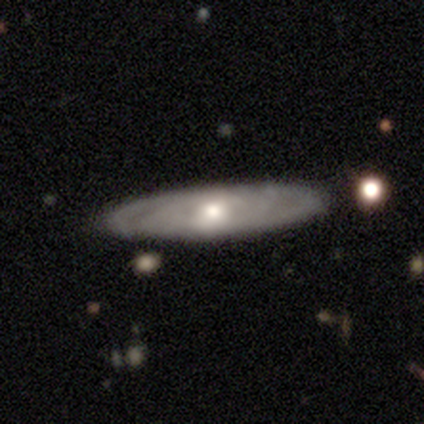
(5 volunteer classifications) Smooth or featured? featured or disk (60%)
Edge-on disk? no (100%)
Bar? no (67%)
Spiral arms? yes (67%)
Spiral winding? tight (100%)
Spiral arm count? 4 (50%, tied with can't tell)
Bulge size? small (100%)
Merging? none (80%)